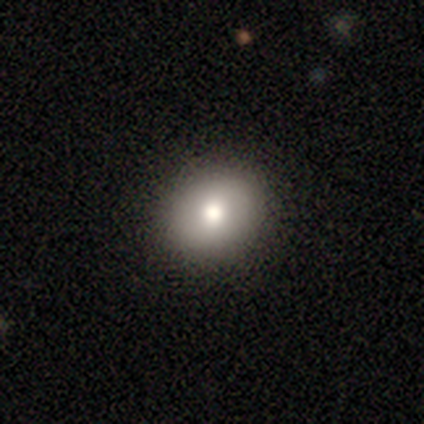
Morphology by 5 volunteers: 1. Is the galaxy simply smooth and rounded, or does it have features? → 60% smooth, 40% featured or disk, 0% star or artifact.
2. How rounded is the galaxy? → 67% round, 33% in between, 0% cigar-shaped.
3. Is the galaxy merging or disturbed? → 100% none, 0% minor disturbance, 0% major disturbance, 0% merger.